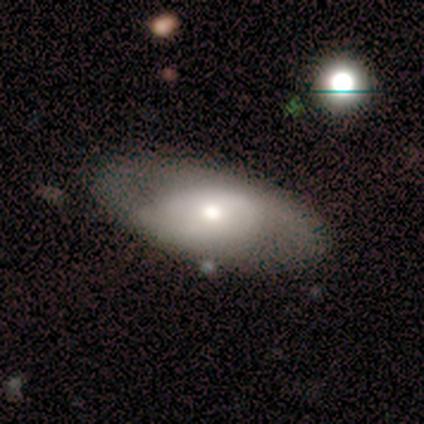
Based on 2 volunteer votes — smooth_or_featured: smooth (p=0.50) [tied with: star or artifact p=0.50]
how_rounded: in between (p=1.00)
merging: none (p=1.00)